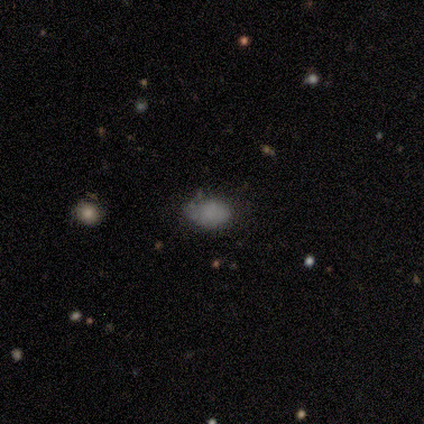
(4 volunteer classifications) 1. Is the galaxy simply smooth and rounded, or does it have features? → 100% smooth, 0% featured or disk, 0% star or artifact.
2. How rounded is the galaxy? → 75% in between, 25% round, 0% cigar-shaped.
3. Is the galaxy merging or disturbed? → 75% none, 25% major disturbance, 0% minor disturbance, 0% merger.